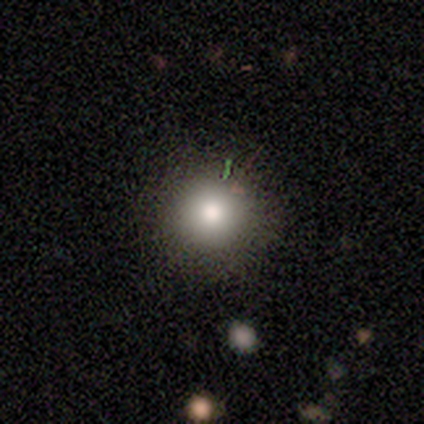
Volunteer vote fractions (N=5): Smooth or featured: smooth — 60% (featured or disk — 20%)
How rounded: round — 100%
Merging: none — 100%